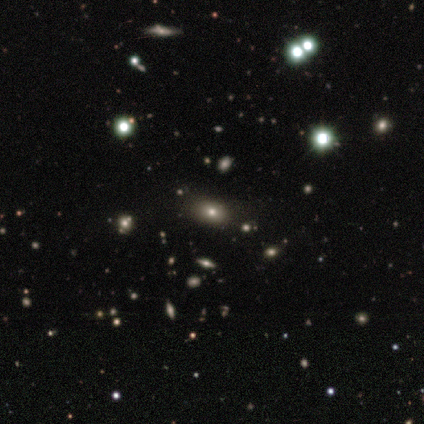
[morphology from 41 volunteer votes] This is possibly a smooth galaxy (59%). How rounded: likely in between (75%). Merging: likely none (79%).